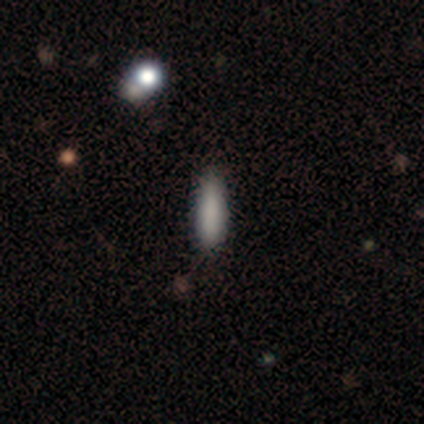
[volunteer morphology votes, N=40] Smooth or featured: smooth — 80% (featured or disk — 10%)
How rounded: cigar-shaped — 78% (in between — 22%)
Merging: none — 86% (minor disturbance — 14%)